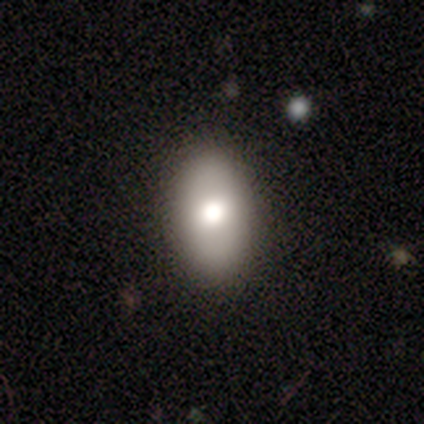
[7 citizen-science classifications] smooth 100%, featured or disk 0%, star or artifact 0%. Down the decision tree: how rounded — in between (86%); merging — none (100%).